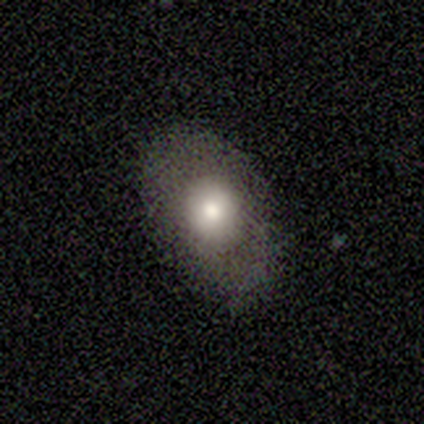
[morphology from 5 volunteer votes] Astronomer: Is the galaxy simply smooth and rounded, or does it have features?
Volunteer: smooth — 60% (runner-up: featured or disk, 40%).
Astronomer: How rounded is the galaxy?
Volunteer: in between — 100%.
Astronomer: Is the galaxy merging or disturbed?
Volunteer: none — 80%.